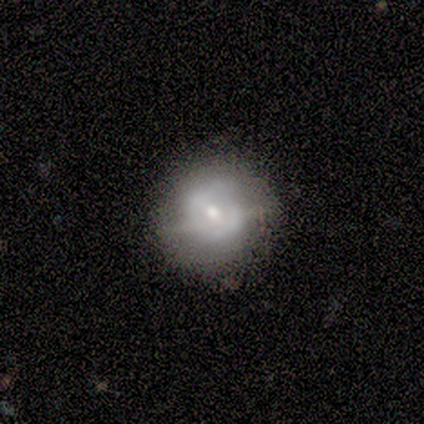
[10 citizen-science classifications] Overall: smooth (50%; featured or disk 40%). How rounded: round (100%). Merging: none (56%; major disturbance 33%).